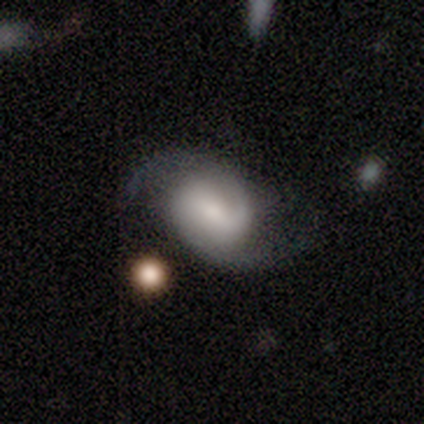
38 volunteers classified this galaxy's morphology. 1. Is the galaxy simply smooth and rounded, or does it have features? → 84% featured or disk, 11% smooth, 5% star or artifact.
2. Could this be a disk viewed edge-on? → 100% no, 0% yes.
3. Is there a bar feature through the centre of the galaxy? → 38% weak (tied), 38% no (tied), 25% strong.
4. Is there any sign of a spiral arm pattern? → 97% yes, 3% no.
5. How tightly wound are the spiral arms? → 55% medium, 26% tight, 19% loose.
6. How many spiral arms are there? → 84% 2, 10% 3, 6% can't tell, 0% 1, 0% 4, 0% more than 4.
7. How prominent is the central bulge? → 38% moderate, 28% small, 16% large, 16% none, 3% dominant.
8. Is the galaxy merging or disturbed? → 78% none, 17% major disturbance, 6% minor disturbance, 0% merger.